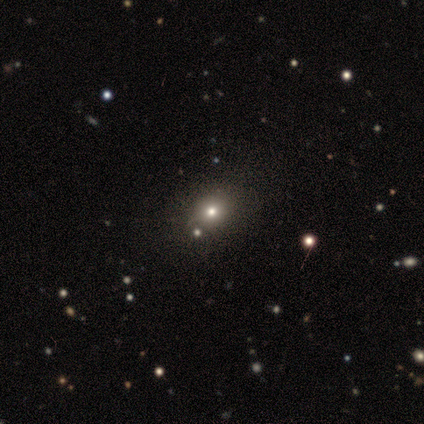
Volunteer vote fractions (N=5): Smooth or featured? smooth (60%)
How rounded? round (67%)
Merging? none (80%)